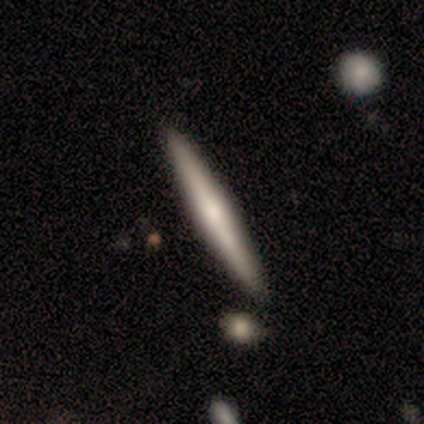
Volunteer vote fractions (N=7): Overall: featured or disk (57%; smooth 43%). Edge-on disk: yes (100%). Edge-on bulge: none (75%). Merging: none (100%).